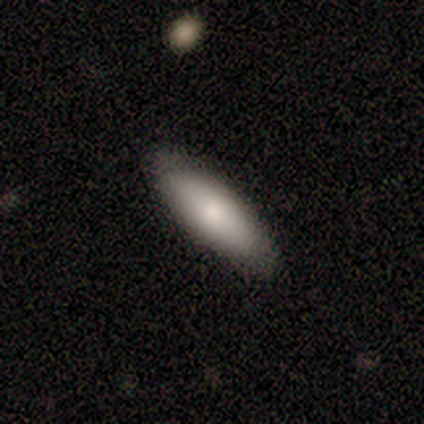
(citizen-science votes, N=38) Volunteers were most divided on "how rounded": in between: 62%, cigar-shaped: 34%, round: 3%. More confident: merging — none (86%); smooth or featured — smooth (84%).